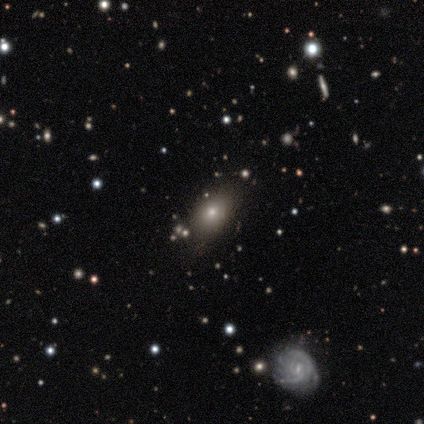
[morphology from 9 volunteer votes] type=smooth (56%); roundness=in between (60%); merging=none (86%).